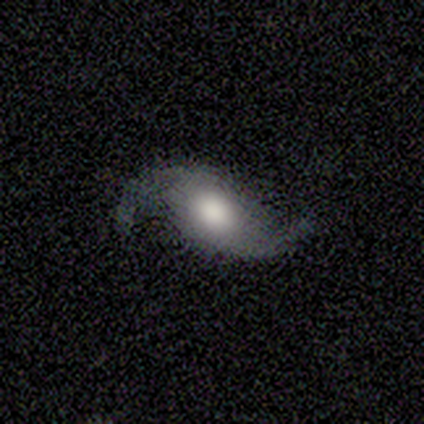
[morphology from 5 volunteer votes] Q: Smooth or featured?
A: featured or disk (100%)
Q: Edge-on disk?
A: no (100%)
Q: Bar?
A: no (100%)
Q: Spiral arms?
A: yes (80%); runner-up: no (20%)
Q: Spiral winding?
A: loose (100%)
Q: Spiral arm count?
A: 2 (100%)
Q: Bulge size?
A: large (40%); tied with: moderate (40%)
Q: Merging?
A: none (80%); runner-up: major disturbance (20%)